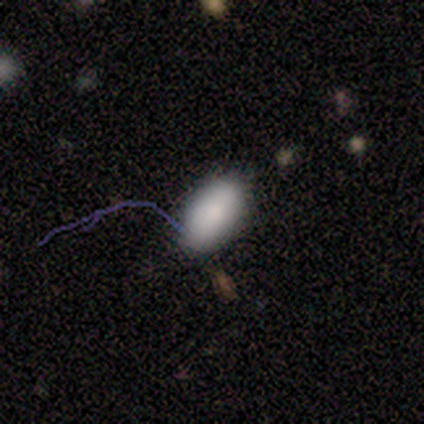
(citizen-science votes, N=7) Smooth or featured? 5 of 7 (71%) said smooth. How rounded? 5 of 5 (100%) said in between. Merging? 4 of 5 (80%) said none.